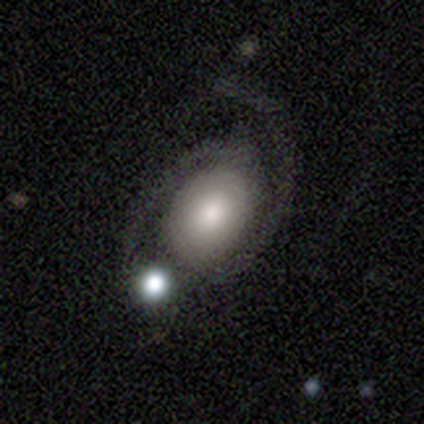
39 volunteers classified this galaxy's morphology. featured or disk 79%, smooth 18%, star or artifact 3%. Down the decision tree: edge-on disk — no (100%); bar — no (81%); spiral arms — yes (97%); spiral arm count — 2 (93%); spiral winding — medium (47%); bulge size — moderate (45%); merging — none (58%).